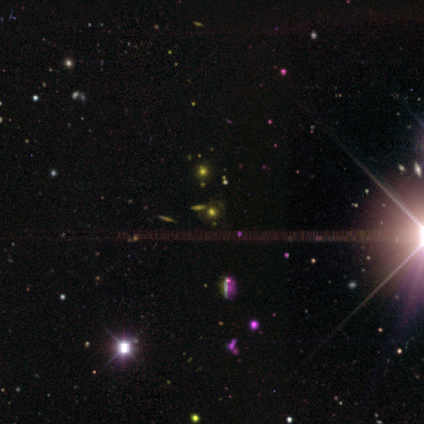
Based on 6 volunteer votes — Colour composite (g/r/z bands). It shows a star or artifact, not a galaxy (67%).